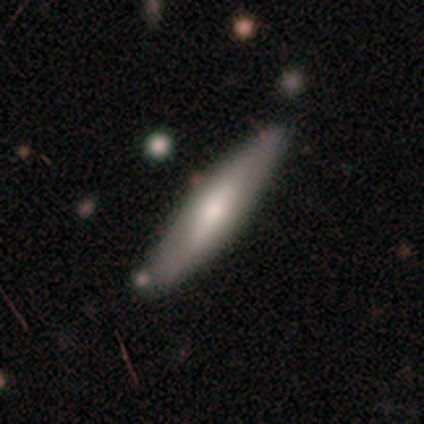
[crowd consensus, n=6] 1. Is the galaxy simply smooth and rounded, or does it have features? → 50% smooth (tied), 50% featured or disk (tied), 0% star or artifact.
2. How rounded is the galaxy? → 100% cigar-shaped, 0% round, 0% in between.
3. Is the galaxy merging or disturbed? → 100% none, 0% minor disturbance, 0% major disturbance, 0% merger.